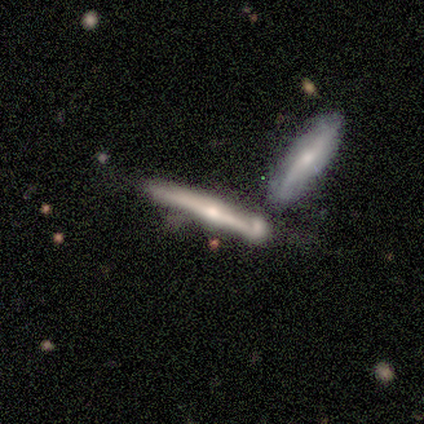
smooth_or_featured: featured or disk (p=1.00)
disk_edge_on: yes (p=1.00)
edge_on_bulge: rounded (p=0.60) [alt: none p=0.40]
merging: none (p=0.40) [tied with: merger p=0.40]